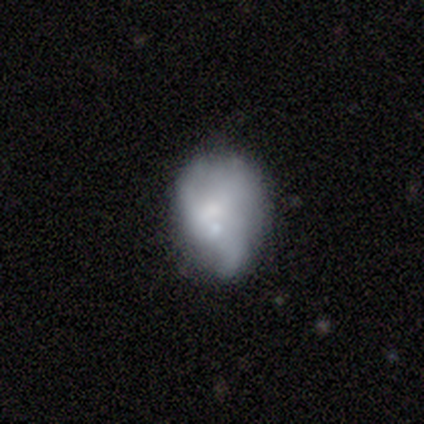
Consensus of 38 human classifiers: This appears to be a smooth galaxy with no disk features (55%) that is in between round and cigar-shaped (67%). Merging: minor disturbance (38%).